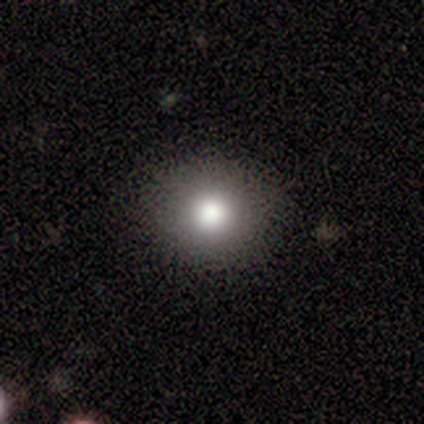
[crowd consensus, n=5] Morphology: type=smooth (60%); roundness=round (100%); merging=none (75%).